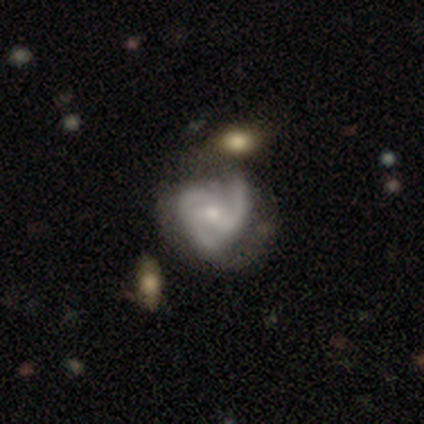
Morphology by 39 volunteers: Smooth or featured? featured or disk (90%)
Edge-on disk? no (97%)
Bar? no (65%)
Spiral arms? yes (97%)
Spiral winding? medium (52%)
Spiral arm count? 3 (61%)
Bulge size? moderate (47%)
Merging? none (22%, tied with minor disturbance)